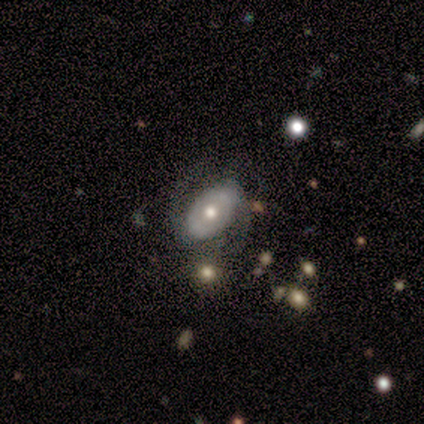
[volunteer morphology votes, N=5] smooth-or-featured: featured or disk: 100% | smooth: 0% | star or artifact: 0%
  disk-edge-on: no: 100% | yes: 0%
    bar: no: 100% | strong: 0% | weak: 0%
    has-spiral-arms: yes: 100% | no: 0%
      spiral-winding: medium: 40% (tied) | loose: 40% (tied) | tight: 20%
      spiral-arm-count: 2: 100% | 1: 0% | 3: 0% | 4: 0% | more than 4: 0% | can't tell: 0%
    bulge-size: small: 60% | moderate: 40% | dominant: 0% | large: 0% | none: 0%
  merging: none: 60% | minor disturbance: 20% | major disturbance: 20% | merger: 0%